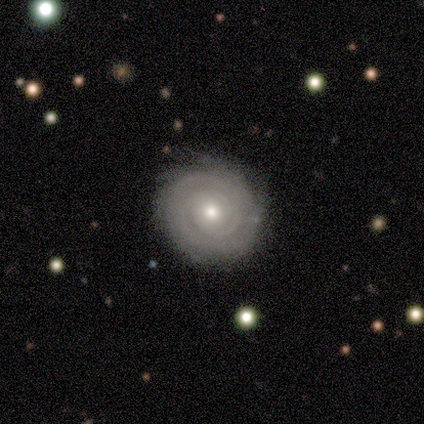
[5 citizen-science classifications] A featured or disk galaxy (100%) with no bar (80%), 2 (40%) tight (100%) spiral arms (100%) and a moderate central bulge (40%, tied with small).

Vote fractions:
- Smooth or featured? featured or disk: 100% / smooth: 0% / star or artifact: 0%
- Edge-on disk? no: 100% / yes: 0%
- Bar? no: 80% / weak: 20% / strong: 0%
- Spiral arms? yes: 100% / no: 0%
- Spiral winding? tight: 100% / medium: 0% / loose: 0%
- Spiral arm count? 2: 40% / 1: 20% / 3: 20% / can't tell: 20% / 4: 0% / more than 4: 0%
- Bulge size? moderate: 40% (tied) / small: 40% (tied) / none: 20% / dominant: 0% / large: 0%
- Merging? none: 80% / major disturbance: 20% / minor disturbance: 0% / merger: 0%